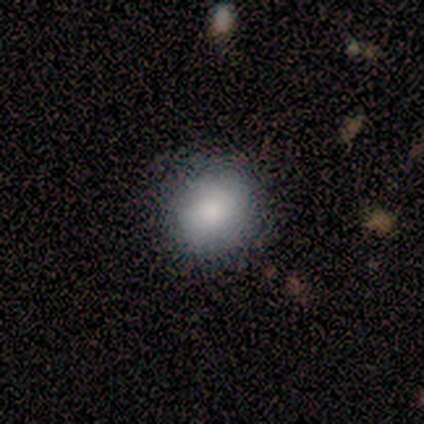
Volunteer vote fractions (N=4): Smooth or featured?
  - smooth: 100% *
  - featured or disk: 0%
  - star or artifact: 0%
How rounded?
  - round: 50% * (tied)
  - in between: 50% * (tied)
  - cigar-shaped: 0%
Merging?
  - none: 75% *
  - minor disturbance: 25%
  - major disturbance: 0%
  - merger: 0%